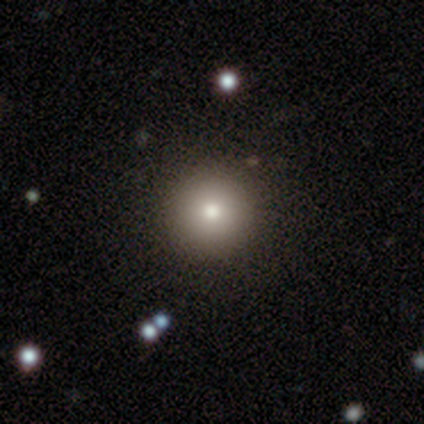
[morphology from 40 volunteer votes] Overall: smooth (78%). How rounded: round (94%). Merging: none (92%).